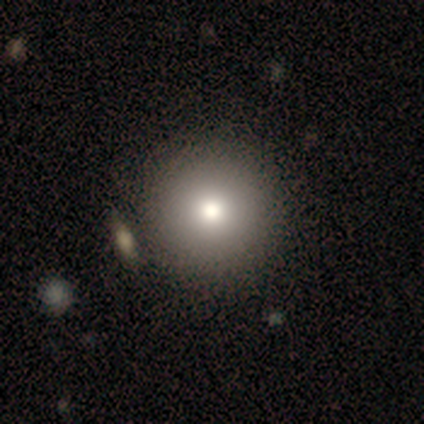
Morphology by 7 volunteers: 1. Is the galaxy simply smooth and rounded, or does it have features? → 86% smooth, 14% featured or disk, 0% star or artifact.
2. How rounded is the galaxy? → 100% round, 0% in between, 0% cigar-shaped.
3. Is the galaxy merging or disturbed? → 57% none, 29% merger, 14% major disturbance, 0% minor disturbance.